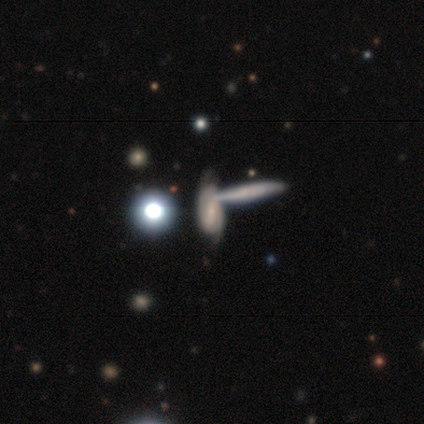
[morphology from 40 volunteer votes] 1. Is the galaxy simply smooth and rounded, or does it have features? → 65% featured or disk, 22% smooth, 12% star or artifact.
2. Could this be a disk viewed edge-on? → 62% no, 38% yes.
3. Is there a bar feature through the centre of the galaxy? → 44% no, 38% weak, 19% strong.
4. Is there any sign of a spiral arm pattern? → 81% yes, 19% no.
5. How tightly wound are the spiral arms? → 69% tight, 23% medium, 8% loose.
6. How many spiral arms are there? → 62% can't tell, 31% 2, 8% 1, 0% 3, 0% 4, 0% more than 4.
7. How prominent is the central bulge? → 56% moderate, 31% small, 12% none, 0% dominant, 0% large.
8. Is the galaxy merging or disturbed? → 69% merger, 0% none, 0% minor disturbance, 0% major disturbance.